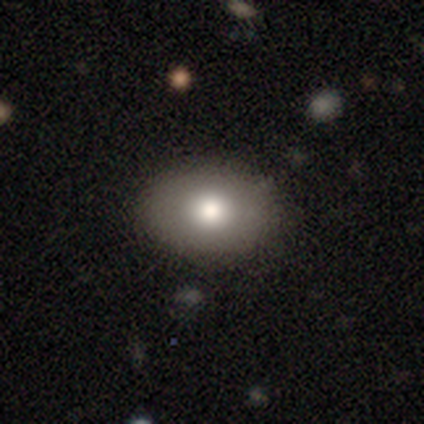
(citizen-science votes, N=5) This is likely a smooth galaxy (60%). How rounded: clearly in between (100%). Merging: clearly none (100%).